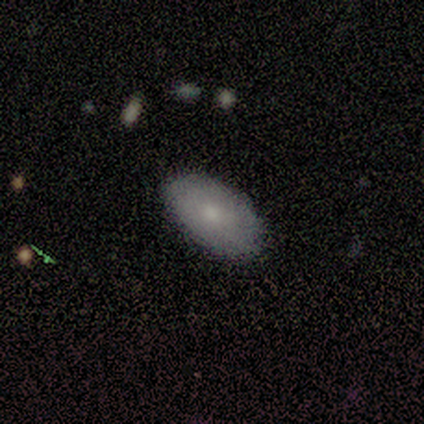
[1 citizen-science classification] Smooth or featured: smooth — 100%
How rounded: in between — 100%
Merging: none — 100%